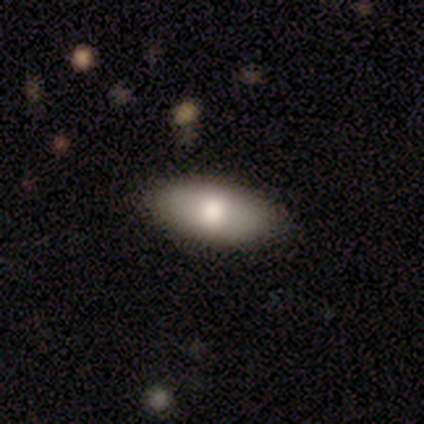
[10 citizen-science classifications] Q: Smooth or featured?
A: smooth (80%); runner-up: featured or disk (20%)
Q: How rounded?
A: in between (75%); runner-up: round (12%)
Q: Merging?
A: none (100%)